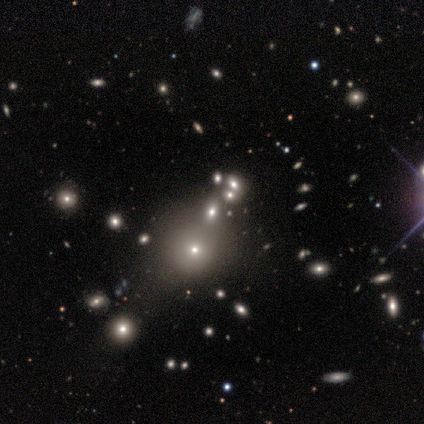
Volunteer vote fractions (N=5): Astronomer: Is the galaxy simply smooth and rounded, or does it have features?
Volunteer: star or artifact — 60% (runner-up: smooth, 40%).